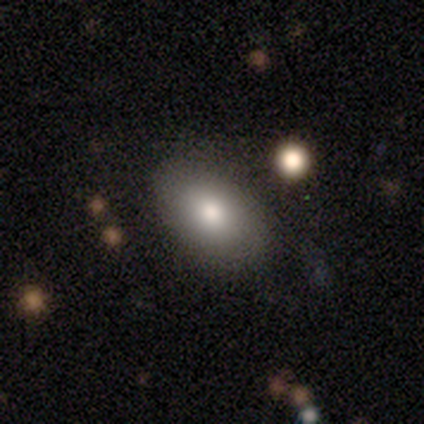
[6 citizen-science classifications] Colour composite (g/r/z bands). It shows a smooth galaxy with no disk features (67%) that is in between round and cigar-shaped (100%). Merging: none (100%).